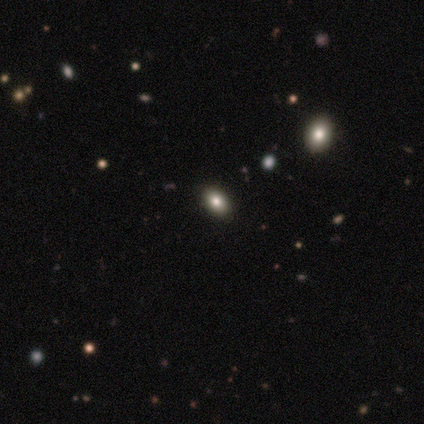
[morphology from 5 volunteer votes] This is likely a smooth galaxy (60%). How rounded: clearly in between (100%). Merging: clearly none (100%).